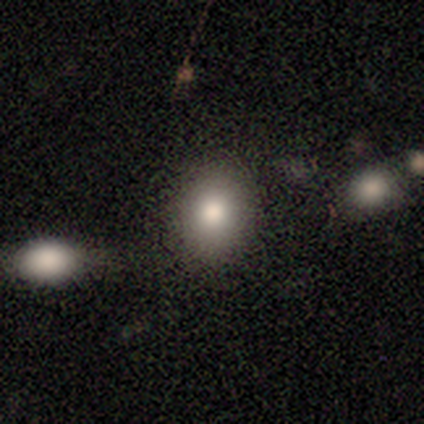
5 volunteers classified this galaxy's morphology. type=smooth (80%); roundness=in between (75%); merging=none (100%).